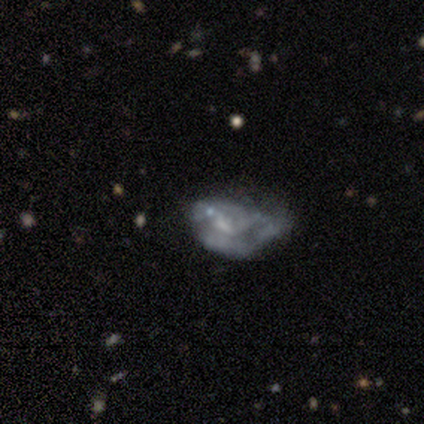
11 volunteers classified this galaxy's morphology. A featured or disk galaxy (64%) with no bar (71%), loose (50%) spiral arms (57%) and a moderate central bulge (57%). Merging: minor disturbance (44%).